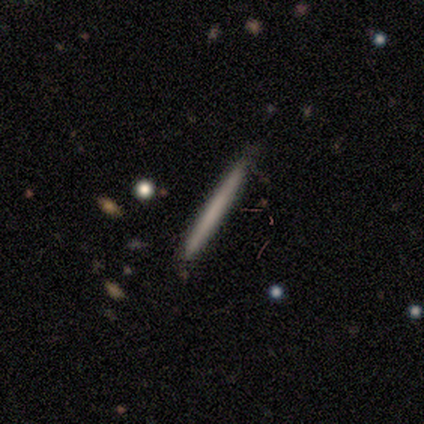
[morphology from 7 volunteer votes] smooth 43% (tied), featured or disk 43% (tied), star or artifact 14%. Down the decision tree: how rounded — cigar-shaped (100%); merging — none (83%).